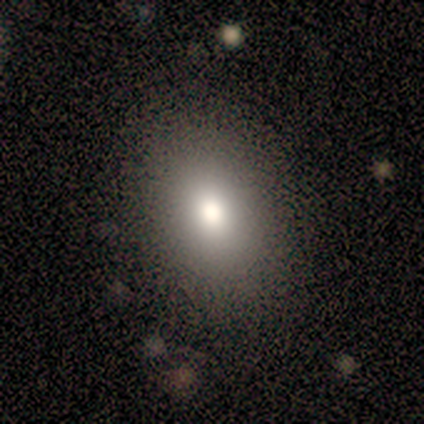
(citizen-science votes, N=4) A smooth galaxy with no disk features (50%) that is in between round and cigar-shaped (100%). Merging: none (100%).